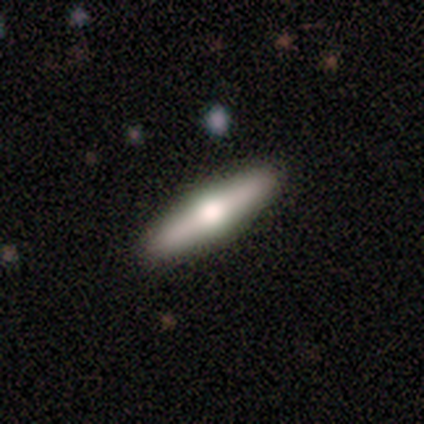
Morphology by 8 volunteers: Q: Smooth or featured?
A: smooth (62%); runner-up: featured or disk (25%)
Q: How rounded?
A: cigar-shaped (100%)
Q: Merging?
A: none (100%)